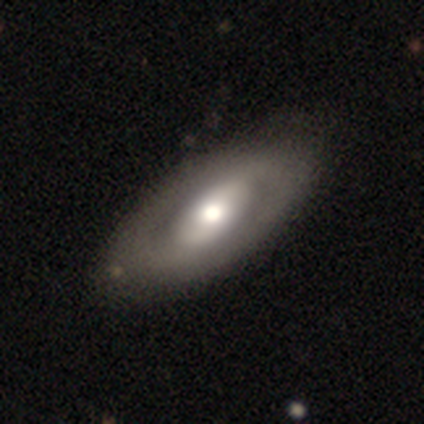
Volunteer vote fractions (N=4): Overall: featured or disk (75%). Edge-on disk: no (67%; yes 33%). Bar: weak (50%, tied with no). Spiral arms: no (100%). Bulge size: large (50%, tied with moderate). Merging: none (67%; minor disturbance 33%).